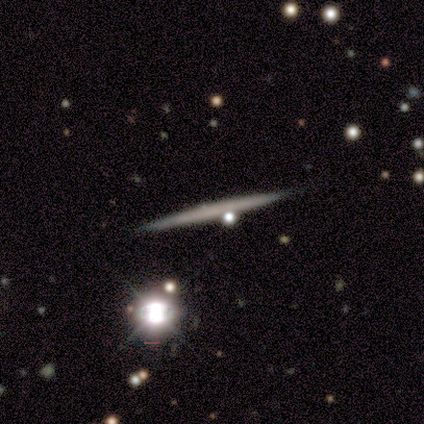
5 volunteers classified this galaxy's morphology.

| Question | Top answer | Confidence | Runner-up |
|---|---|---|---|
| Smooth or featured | smooth | 60% | featured or disk (40%) |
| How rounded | cigar-shaped | 100% | — |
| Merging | none | 100% | — |